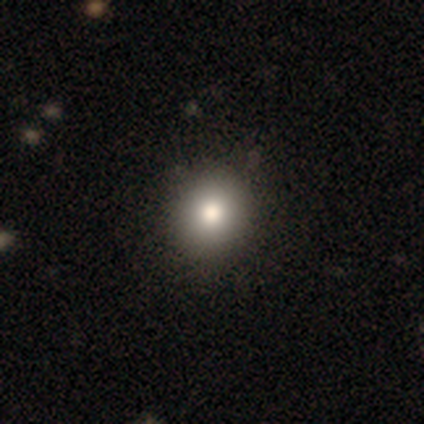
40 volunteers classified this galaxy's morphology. A smooth galaxy with no disk features (85%) that is round (71%). Merging: none (71%).